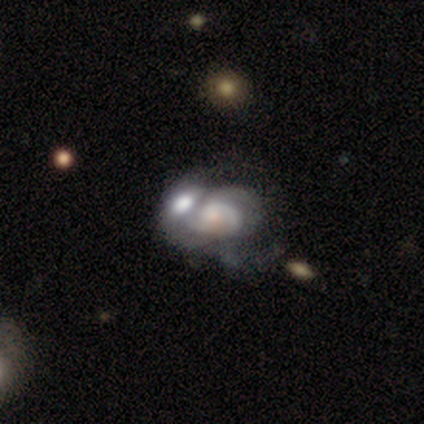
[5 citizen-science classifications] Smooth or featured? 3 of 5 (60%) said smooth. How rounded? 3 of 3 (100%) said in between. Merging? 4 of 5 (80%) said merger.